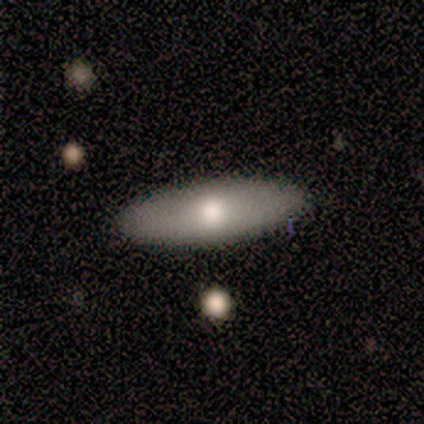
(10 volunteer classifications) Morphology: type=smooth (60%); roundness=in between (67%); merging=none (100%).